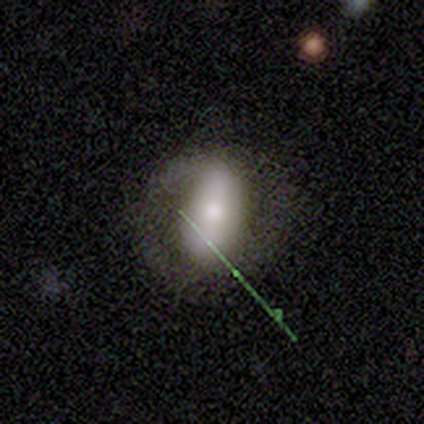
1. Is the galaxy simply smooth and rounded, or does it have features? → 50% featured or disk, 25% smooth, 25% star or artifact.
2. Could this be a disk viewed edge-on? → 100% no, 0% yes.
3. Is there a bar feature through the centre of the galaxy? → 100% no, 0% strong, 0% weak.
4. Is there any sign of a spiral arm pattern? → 100% no, 0% yes.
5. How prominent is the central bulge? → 100% moderate, 0% dominant, 0% large, 0% small, 0% none.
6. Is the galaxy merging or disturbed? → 67% none, 33% minor disturbance, 0% major disturbance, 0% merger.